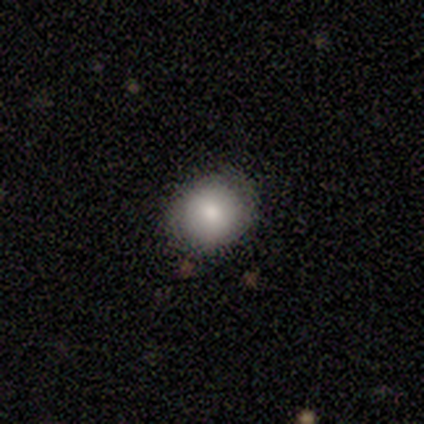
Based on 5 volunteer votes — A smooth galaxy with no disk features (80%) that is round (100%).

Vote fractions:
- Smooth or featured? smooth: 80% / featured or disk: 20% / star or artifact: 0%
- How rounded? round: 100% / in between: 0% / cigar-shaped: 0%
- Merging? none: 100% / minor disturbance: 0% / major disturbance: 0% / merger: 0%